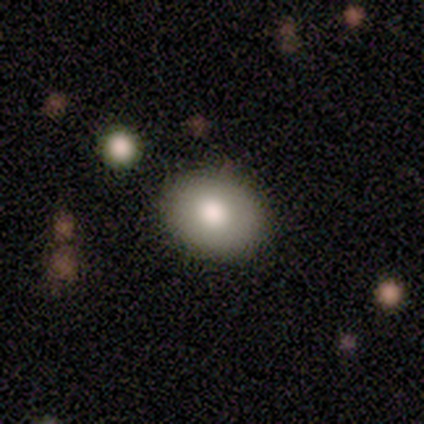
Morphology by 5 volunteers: This appears to be a smooth galaxy with no disk features (80%) that is in between round and cigar-shaped (75%). Merging: none (80%).